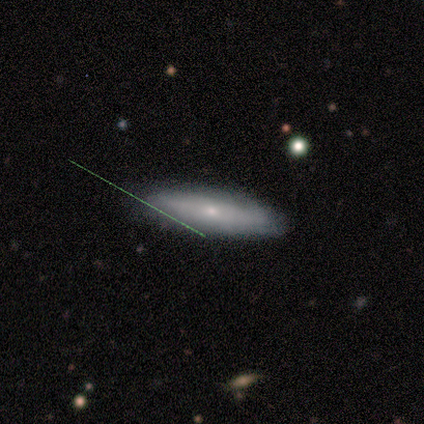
This is likely a featured or disk galaxy (60%). It is likely not viewed edge-on (67%). Bar: clearly no (100%). Spiral arm pattern: clearly no (100%). Central bulge: clearly small (100%). Merging: clearly none (100%).